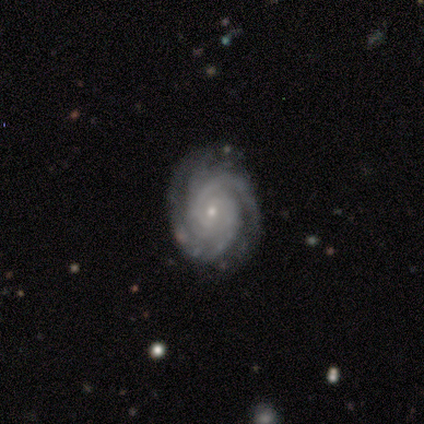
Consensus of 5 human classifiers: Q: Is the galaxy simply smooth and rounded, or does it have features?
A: featured or disk — 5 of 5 (100%).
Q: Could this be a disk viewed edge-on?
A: no — 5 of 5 (100%).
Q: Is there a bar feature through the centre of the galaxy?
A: no — 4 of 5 (80%).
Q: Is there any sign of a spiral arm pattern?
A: yes — 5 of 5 (100%).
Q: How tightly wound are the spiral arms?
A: tight — 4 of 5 (80%).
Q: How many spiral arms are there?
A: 3 — 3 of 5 (60%).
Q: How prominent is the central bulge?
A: small — 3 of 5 (60%).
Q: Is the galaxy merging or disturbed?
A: none — 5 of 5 (100%).